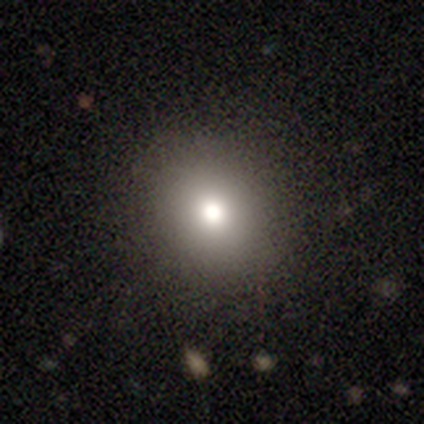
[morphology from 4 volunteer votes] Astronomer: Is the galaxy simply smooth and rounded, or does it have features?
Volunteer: smooth — 75%.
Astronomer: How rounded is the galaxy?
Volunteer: round — 100%.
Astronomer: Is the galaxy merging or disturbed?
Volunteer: none — 75%.